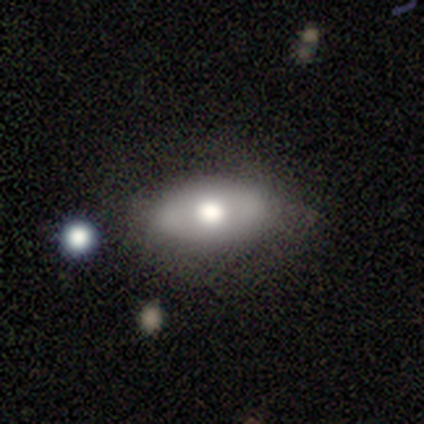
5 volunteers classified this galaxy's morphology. Volunteers were most divided on "smooth or featured": featured or disk: 60%, smooth: 40%, star or artifact: 0%. More confident: edge-on disk — no (100%); bar — no (100%); spiral arms — no (100%); merging — minor disturbance (80%); bulge size — large (67%).